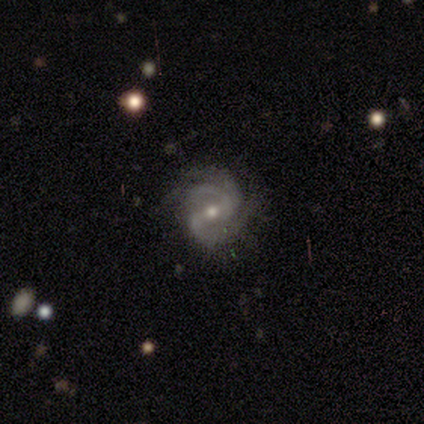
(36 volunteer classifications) Volunteers were most divided on "spiral winding": medium: 52%, tight: 42%, loose: 6%. Remaining: edge-on disk — no (97%); spiral arms — yes (97%); smooth or featured — featured or disk (92%); merging — none (74%); bulge size — moderate (69%); spiral arm count — 2 (58%); bar — weak (47%).